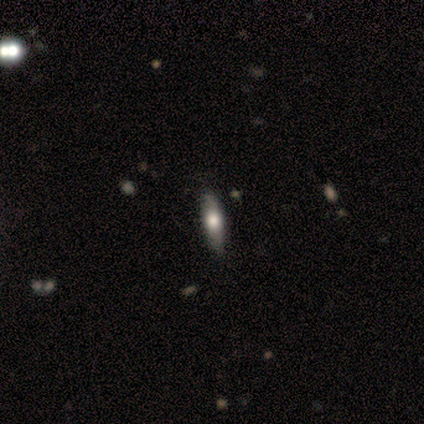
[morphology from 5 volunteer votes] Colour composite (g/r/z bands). It shows a smooth galaxy with no disk features (60%) that is in between round and cigar-shaped (67%). Merging: none (100%).